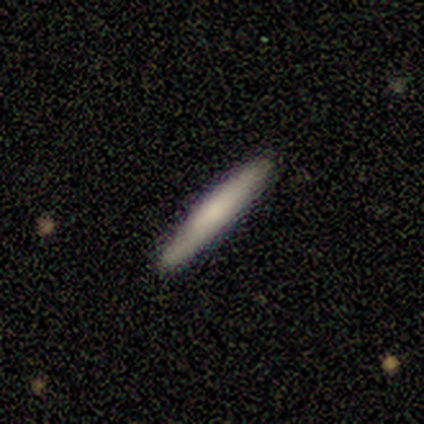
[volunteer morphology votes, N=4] smooth-or-featured: smooth: 50% (tied) | featured or disk: 50% (tied) | star or artifact: 0%
  how-rounded: cigar-shaped: 100% | round: 0% | in between: 0%
  merging: none: 50% | minor disturbance: 25% | major disturbance: 25% | merger: 0%